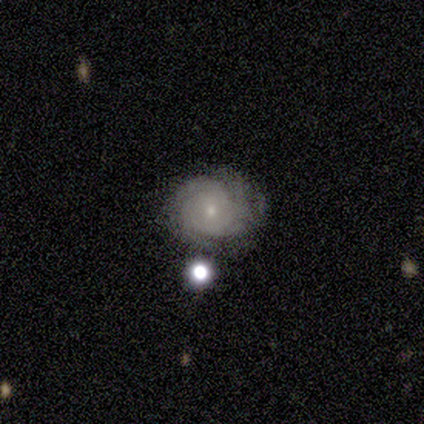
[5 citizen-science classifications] A featured or disk galaxy (100%) with no bar (100%), 4 (60%) tight (80%) spiral arms (100%) and a small central bulge (100%). Merging: none (100%).